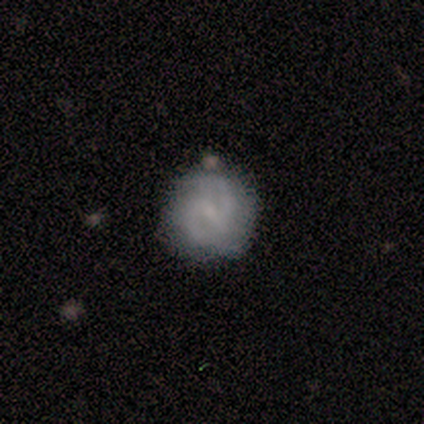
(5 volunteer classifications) This appears to be a featured or disk galaxy (80%) with a weak bar (50%), 2 (100%) medium (50%, tied with loose) spiral arms (100%) and no central bulge (75%). Merging: none (80%).